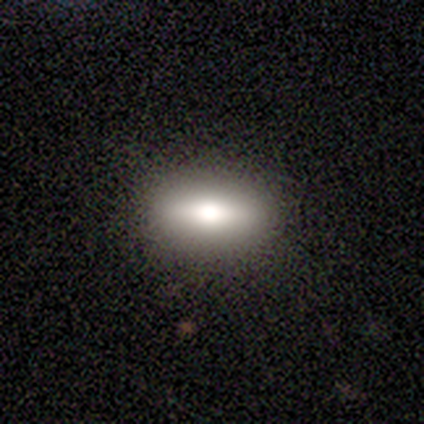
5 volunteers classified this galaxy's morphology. A featured or disk galaxy (60%) viewed edge-on (67%) with a boxy central bulge (50%, tied with rounded). Merging: none (60%).